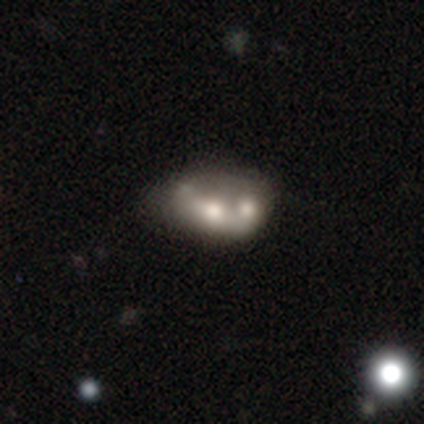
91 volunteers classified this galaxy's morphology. A featured or disk galaxy (53%) with no bar (94%), no spiral arms (94%) and a moderate central bulge (68%).

Vote fractions:
- Smooth or featured? featured or disk: 53% / smooth: 38% / star or artifact: 9%
- Edge-on disk? no: 98% / yes: 2%
- Bar? no: 94% / weak: 4% / strong: 2%
- Spiral arms? no: 94% / yes: 6%
- Bulge size? moderate: 68% / large: 15% / small: 15% / none: 2% / dominant: 0%
- Merging? merger: 61% / minor disturbance: 18% / none: 16% / major disturbance: 5%